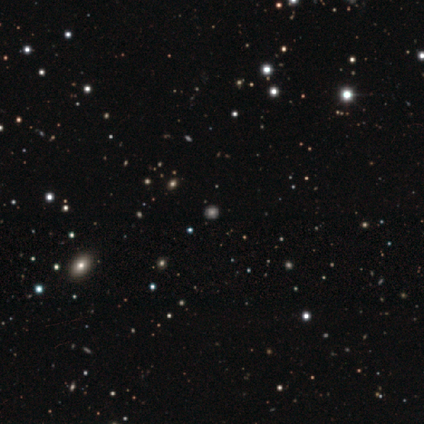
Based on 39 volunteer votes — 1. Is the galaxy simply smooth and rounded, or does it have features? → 46% smooth (tied), 46% star or artifact (tied), 8% featured or disk.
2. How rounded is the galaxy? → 94% round, 6% in between, 0% cigar-shaped.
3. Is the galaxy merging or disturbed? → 90% none, 0% minor disturbance, 0% major disturbance, 0% merger.